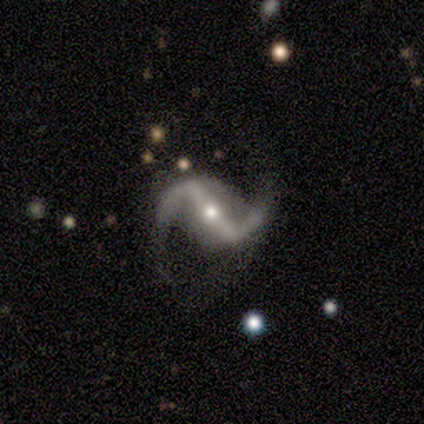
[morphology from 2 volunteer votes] Smooth or featured? 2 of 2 (100%) said featured or disk. Edge-on disk? 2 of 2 (100%) said no. Bar? 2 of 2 (100%) said strong. Spiral arms? 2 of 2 (100%) said yes. Spiral winding? 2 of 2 (100%) said loose. Spiral arm count? 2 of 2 (100%) said 2. Bulge size? 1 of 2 (50%, tied with small) said moderate. Merging? 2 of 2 (100%) said none.